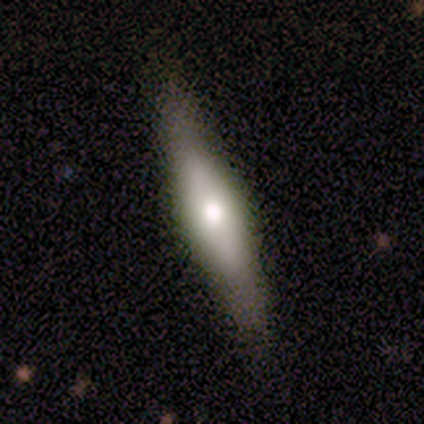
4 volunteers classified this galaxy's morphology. Overall: featured or disk (50%; smooth 25%). Edge-on disk: yes (100%). Edge-on bulge: boxy (50%, tied with rounded). Merging: none (100%).